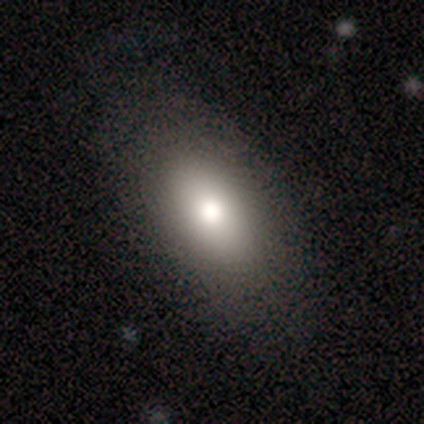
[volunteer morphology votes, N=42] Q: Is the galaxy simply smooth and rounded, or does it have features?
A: smooth — 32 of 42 (76%).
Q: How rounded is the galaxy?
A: in between — 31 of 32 (97%).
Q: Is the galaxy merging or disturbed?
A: none — 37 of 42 (88%).